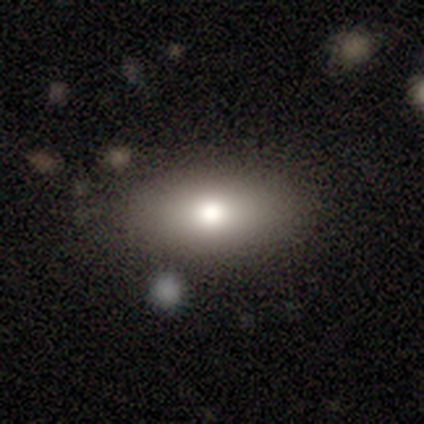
Smooth or featured? 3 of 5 (60%) said smooth. How rounded? 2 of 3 (67%) said in between. Merging? 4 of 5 (80%) said none.